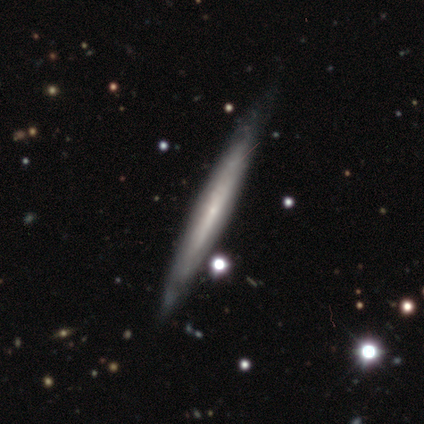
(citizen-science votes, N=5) Overall: smooth (80%). How rounded: cigar-shaped (100%). Merging: none (60%; minor disturbance 40%).